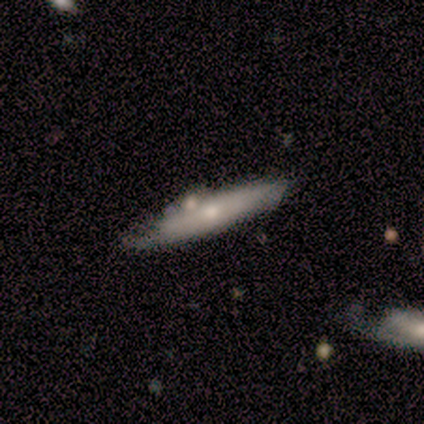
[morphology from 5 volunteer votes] Overall: smooth (60%; featured or disk 40%). How rounded: cigar-shaped (100%). Merging: none (40%, tied with merger).